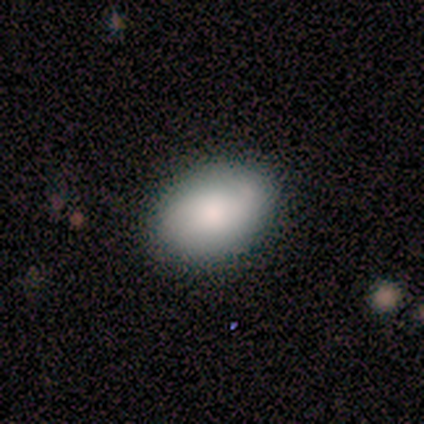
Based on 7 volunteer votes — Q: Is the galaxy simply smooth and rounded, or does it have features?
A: smooth — 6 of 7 (86%).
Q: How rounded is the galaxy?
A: in between — 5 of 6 (83%).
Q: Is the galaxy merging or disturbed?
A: none — 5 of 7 (71%).